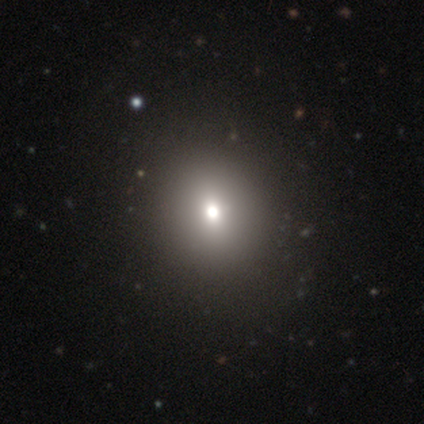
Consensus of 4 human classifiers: Smooth or featured? smooth (50%, tied with star or artifact)
How rounded? round (50%, tied with in between)
Merging? none (100%)